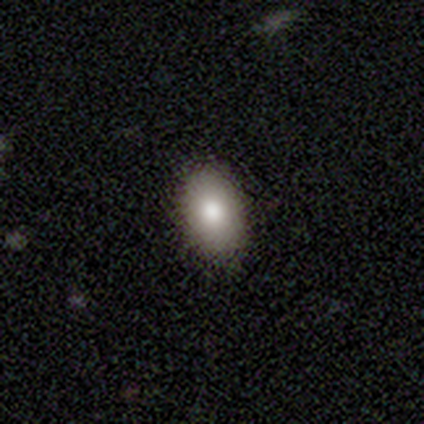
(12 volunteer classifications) smooth-or-featured: smooth: 83% | featured or disk: 17% | star or artifact: 0%
  how-rounded: in between: 90% | round: 10% | cigar-shaped: 0%
  merging: none: 92% | minor disturbance: 8% | major disturbance: 0% | merger: 0%